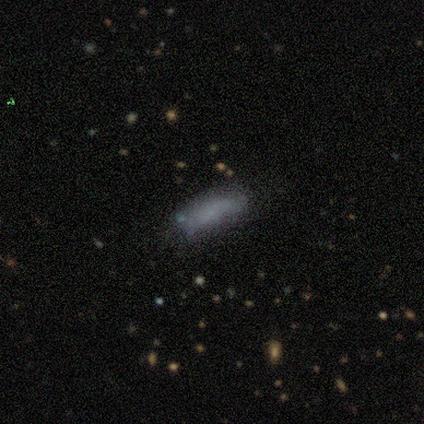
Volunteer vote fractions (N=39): Volunteers were most divided on "smooth or featured": smooth: 67%, star or artifact: 18%, featured or disk: 15%. More confident: merging — none (81%); how rounded — in between (81%).